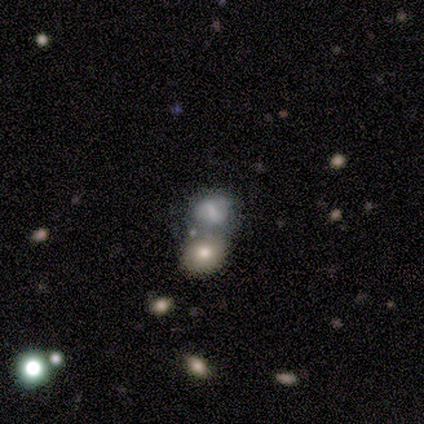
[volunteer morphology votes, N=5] Overall: smooth (60%; featured or disk 20%). How rounded: in between (67%; round 33%). Merging: merger (50%; none 25%).